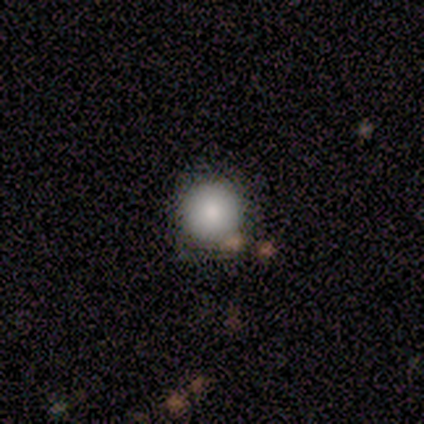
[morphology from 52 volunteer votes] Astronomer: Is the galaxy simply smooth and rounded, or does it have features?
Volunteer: smooth — 81%.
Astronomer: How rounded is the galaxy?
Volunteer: round — 98%.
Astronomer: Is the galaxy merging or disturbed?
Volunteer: none — 87%.